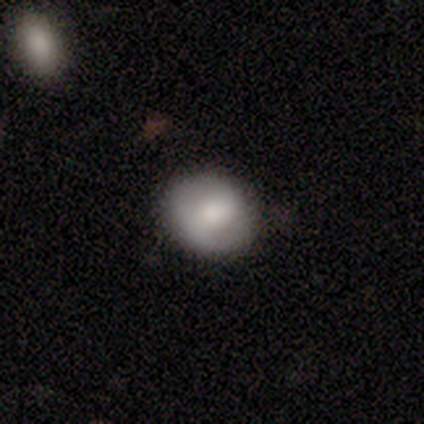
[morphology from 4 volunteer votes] smooth_or_featured: smooth (p=1.00)
how_rounded: round (p=0.75) [alt: in between p=0.25]
merging: none (p=0.50) [tied with: minor disturbance p=0.50]